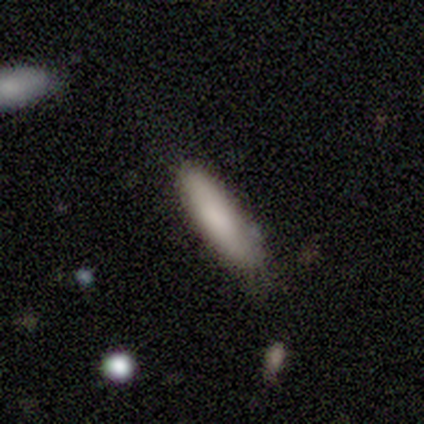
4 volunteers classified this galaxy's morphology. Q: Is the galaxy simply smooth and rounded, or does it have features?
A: smooth — 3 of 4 (75%).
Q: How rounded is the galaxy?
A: in between — 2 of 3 (67%).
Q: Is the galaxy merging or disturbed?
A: none — 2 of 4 (50%, tied with minor disturbance).